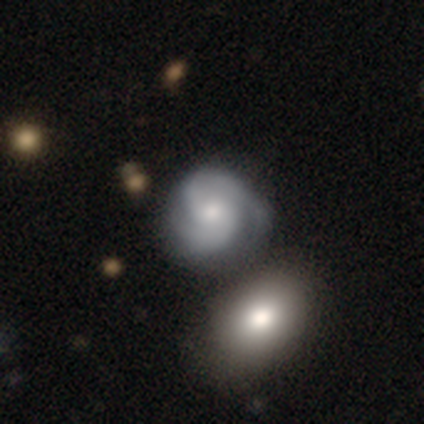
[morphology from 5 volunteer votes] smooth_or_featured: featured or disk (p=1.00)
disk_edge_on: no (p=1.00)
bar: no (p=1.00)
has_spiral_arms: yes (p=1.00)
spiral_winding: medium (p=0.60) [alt: tight p=0.40]
spiral_arm_count: 2 (p=0.40) [tied with: 3 p=0.40]
bulge_size: moderate (p=0.60) [alt: small p=0.40]
merging: none (p=1.00)